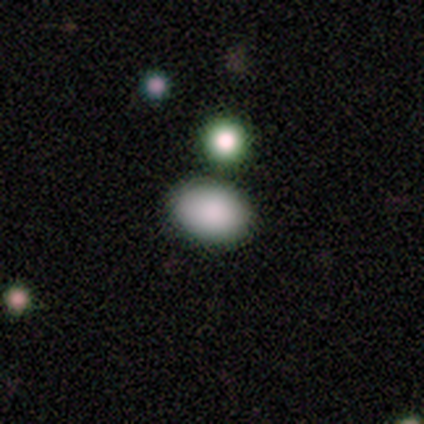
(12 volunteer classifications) Smooth or featured? 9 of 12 (75%) said smooth. How rounded? 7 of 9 (78%) said in between. Merging? 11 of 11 (100%) said none.